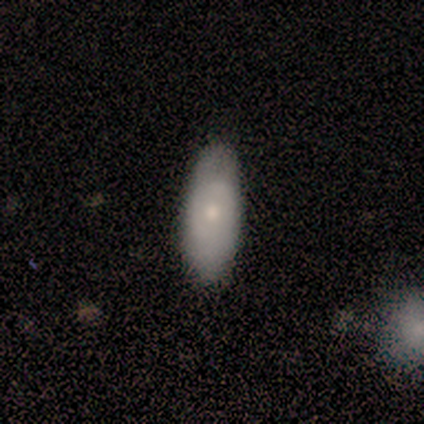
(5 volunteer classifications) This appears to be a smooth galaxy with no disk features (60%) that is in between round and cigar-shaped (67%). Merging: none (80%).